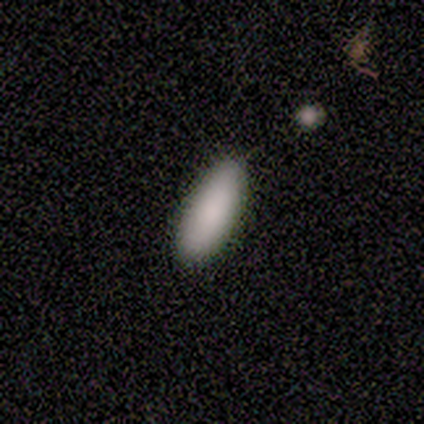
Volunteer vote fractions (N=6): Smooth or featured? smooth (100%)
How rounded? in between (83%)
Merging? none (83%)